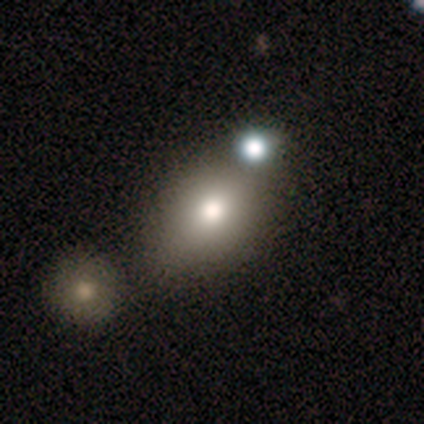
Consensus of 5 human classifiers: This is clearly a smooth galaxy (100%). How rounded: clearly in between (80%). Merging: clearly none (80%).